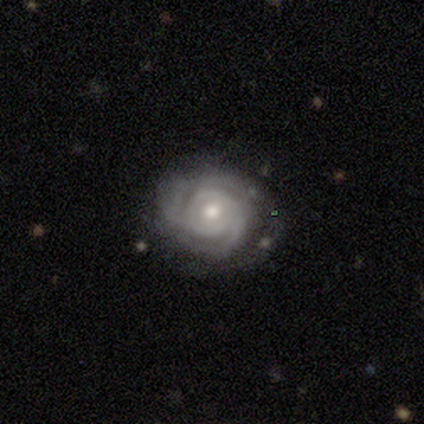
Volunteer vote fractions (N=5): Smooth or featured: featured or disk — 100%
Edge-on disk: no — 100%
Bar: no — 80% (weak — 20%)
Spiral arms: yes — 100%
Spiral winding: tight — 80% (medium — 20%)
Spiral arm count: 3 — 60% (can't tell — 40%)
Bulge size: moderate — 100%
Merging: minor disturbance — 60% (none — 40%)